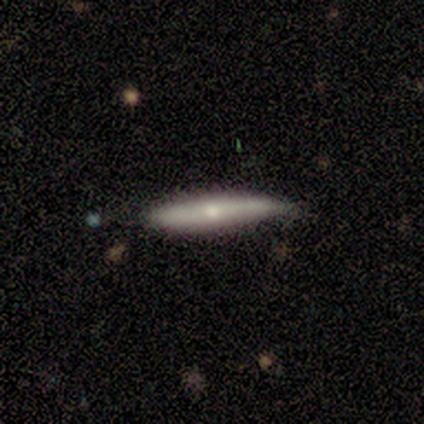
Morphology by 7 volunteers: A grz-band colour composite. It shows a smooth galaxy with no disk features (57%) that is cigar-shaped (100%). Merging: none (50%).